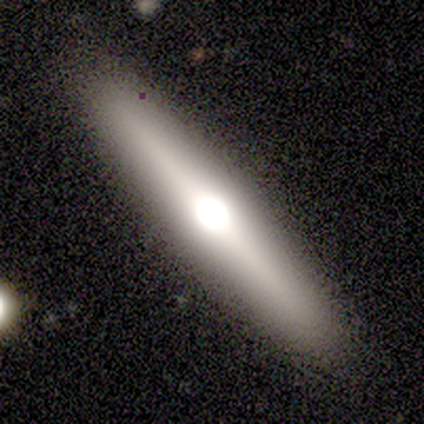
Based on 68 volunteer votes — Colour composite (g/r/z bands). It shows a featured or disk galaxy (57%) viewed edge-on (85%) with a rounded central bulge (88%). Merging: none (64%).